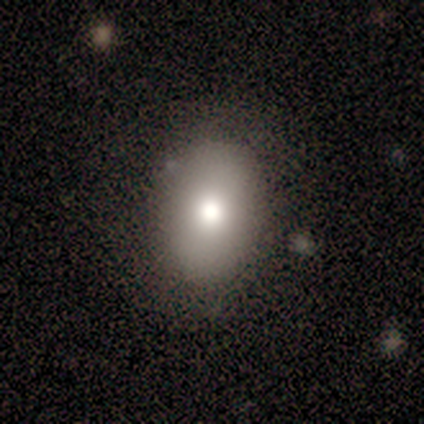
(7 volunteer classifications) A smooth galaxy with no disk features (86%) that is in between round and cigar-shaped (67%). Merging: none (86%).